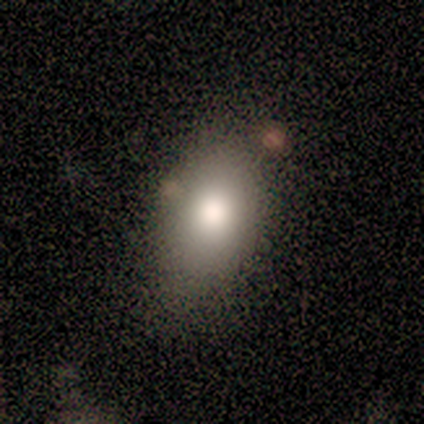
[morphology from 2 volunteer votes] Smooth or featured? smooth (100%)
How rounded? in between (100%)
Merging? none (50%, tied with major disturbance)